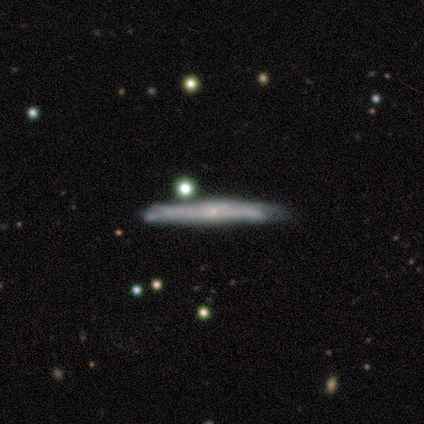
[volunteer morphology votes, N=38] Q: Smooth or featured?
A: smooth (58%); runner-up: featured or disk (34%)
Q: How rounded?
A: cigar-shaped (100%)
Q: Merging?
A: none (63%); runner-up: minor disturbance (23%)